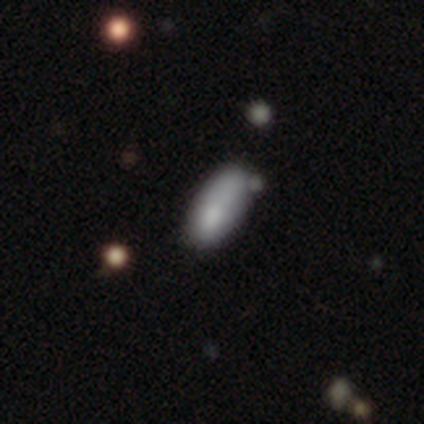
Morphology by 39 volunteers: This appears to be a smooth galaxy with no disk features (85%) that is in between round and cigar-shaped (79%). Merging: none (57%).